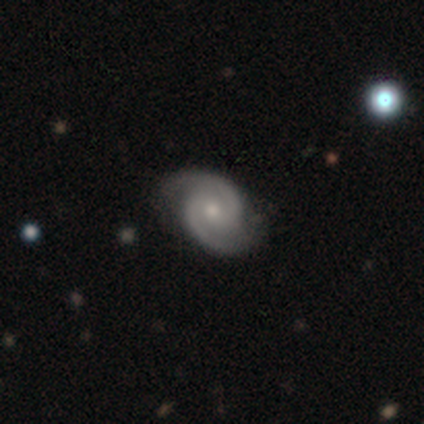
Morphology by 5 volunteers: smooth_or_featured: featured or disk (p=1.00)
disk_edge_on: no (p=1.00)
bar: no (p=0.60) [alt: strong p=0.20]
has_spiral_arms: yes (p=1.00)
spiral_winding: medium (p=0.60) [alt: tight p=0.40]
spiral_arm_count: 2 (p=1.00)
bulge_size: small (p=0.60) [alt: moderate p=0.40]
merging: none (p=1.00)